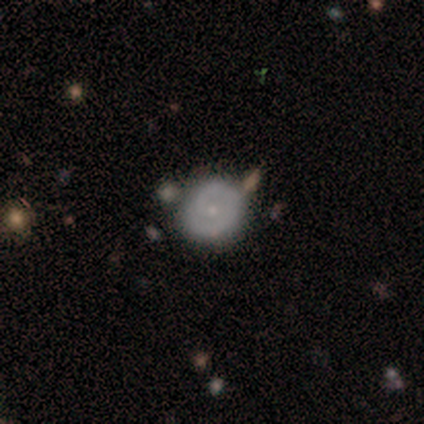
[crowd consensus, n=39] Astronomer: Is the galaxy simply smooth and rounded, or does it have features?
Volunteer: featured or disk — 72%.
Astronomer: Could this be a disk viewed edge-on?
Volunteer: no — 96%.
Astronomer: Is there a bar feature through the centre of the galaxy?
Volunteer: no — 85%.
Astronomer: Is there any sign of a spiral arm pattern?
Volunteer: yes — 78%.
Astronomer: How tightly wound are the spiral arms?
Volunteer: tight — 71%.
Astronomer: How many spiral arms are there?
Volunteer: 2 — 52% (runner-up: 1, 43%).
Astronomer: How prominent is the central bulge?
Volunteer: small — 74%.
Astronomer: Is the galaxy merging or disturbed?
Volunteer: none — 87%.